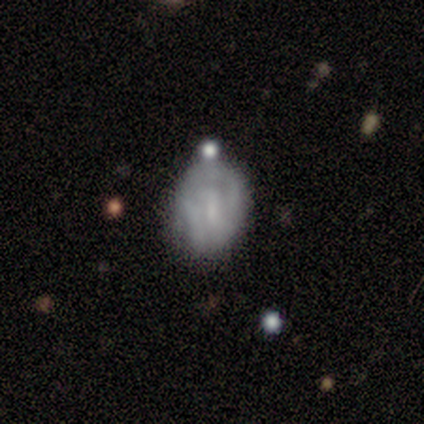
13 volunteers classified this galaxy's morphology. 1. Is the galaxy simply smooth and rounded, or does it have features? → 54% smooth, 46% featured or disk, 0% star or artifact.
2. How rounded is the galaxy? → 71% in between, 29% round, 0% cigar-shaped.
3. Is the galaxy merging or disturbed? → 46% none, 23% major disturbance, 15% minor disturbance, 15% merger.